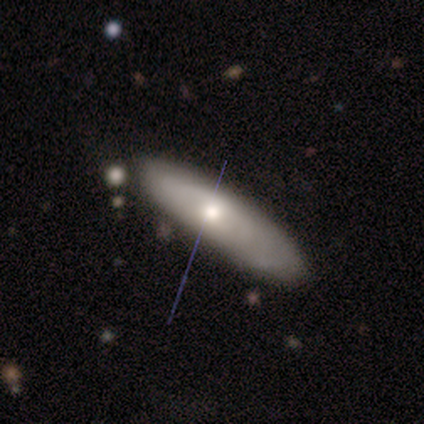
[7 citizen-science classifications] Overall: smooth (57%; featured or disk 29%). How rounded: in between (75%). Merging: none (67%; minor disturbance 33%).